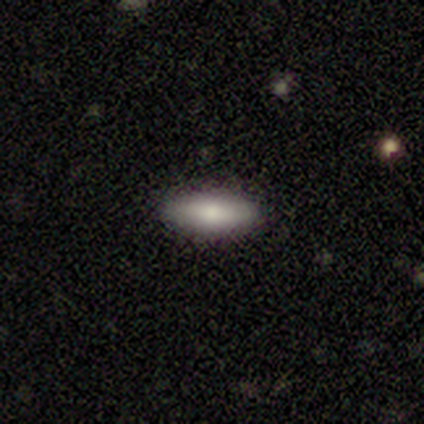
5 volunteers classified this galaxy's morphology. Volunteers were most divided on "merging": none: 75%, minor disturbance: 25%, major disturbance: 0%, merger: 0%. More confident: how rounded — in between (100%); smooth or featured — smooth (80%).